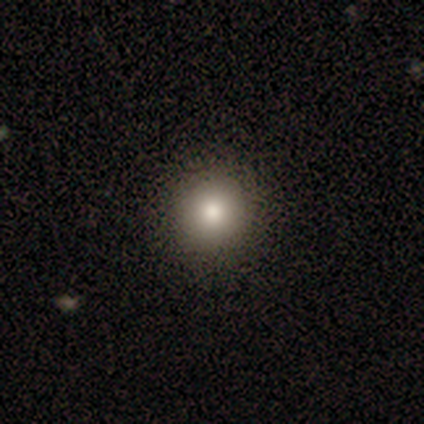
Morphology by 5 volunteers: smooth_or_featured: smooth (p=0.80) [alt: star or artifact p=0.20]
how_rounded: round (p=0.75) [alt: in between p=0.25]
merging: none (p=1.00)